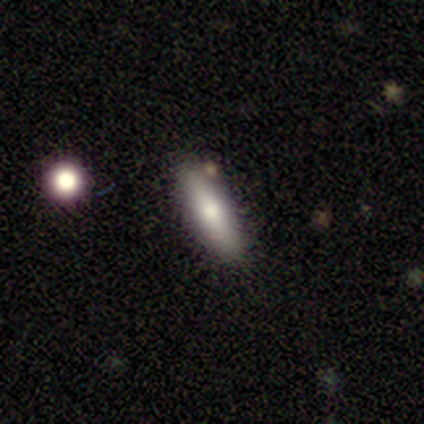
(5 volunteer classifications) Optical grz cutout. It shows a smooth galaxy with no disk features (80%) that is cigar-shaped (100%). Merging: none (100%).